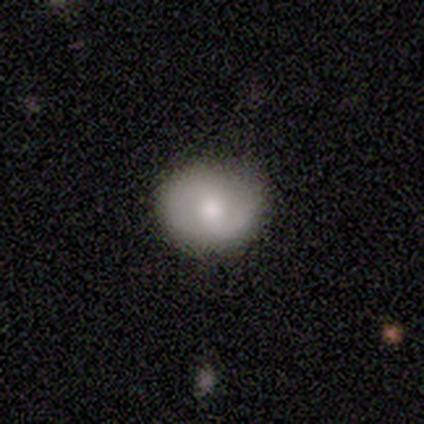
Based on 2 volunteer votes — This is clearly a smooth galaxy (100%). How rounded: clearly round (100%). Merging: possibly none (50%, tied with minor disturbance).